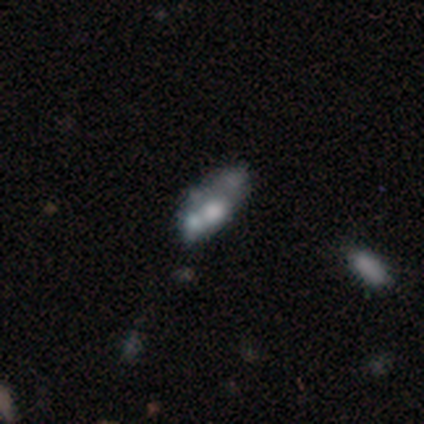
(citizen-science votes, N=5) Smooth or featured: featured or disk — 80% (smooth — 20%)
Edge-on disk: no — 100%
Bar: no — 100%
Spiral arms: no — 100%
Bulge size: none — 75% (moderate — 25%)
Merging: none — 40% (tied with merger — 40%)